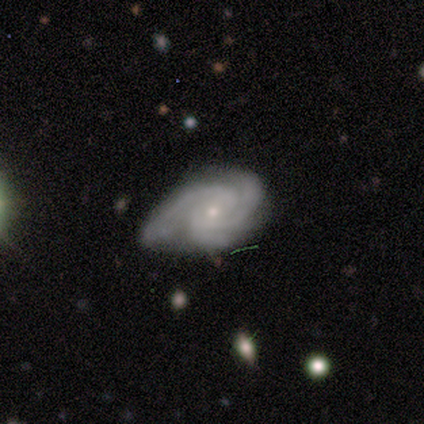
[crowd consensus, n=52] smooth-or-featured: featured or disk: 87% | smooth: 10% | star or artifact: 4%
  disk-edge-on: no: 96% | yes: 4%
    bar: no: 79% | weak: 21% | strong: 0%
    has-spiral-arms: yes: 100% | no: 0%
      spiral-winding: tight: 65% | medium: 35% | loose: 0%
      spiral-arm-count: 3: 60% | 2: 35% | can't tell: 5% | 1: 0% | 4: 0% | more than 4: 0%
    bulge-size: small: 77% | moderate: 21% | none: 2% | dominant: 0% | large: 0%
  merging: none: 40% | minor disturbance: 38% | major disturbance: 18% | merger: 4%